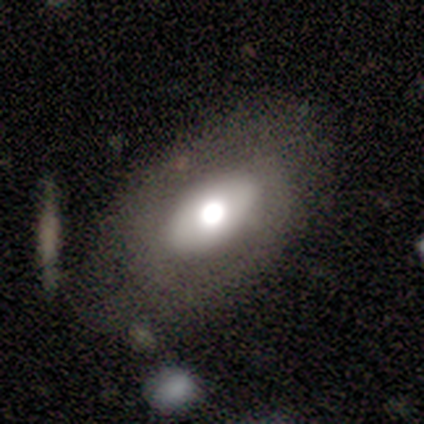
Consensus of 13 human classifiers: Smooth or featured? 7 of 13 (54%) said featured or disk. Edge-on disk? 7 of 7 (100%) said no. Bar? 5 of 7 (71%) said no. Spiral arms? 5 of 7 (71%) said no. Bulge size? 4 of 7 (57%) said large. Merging? 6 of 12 (50%) said minor disturbance.